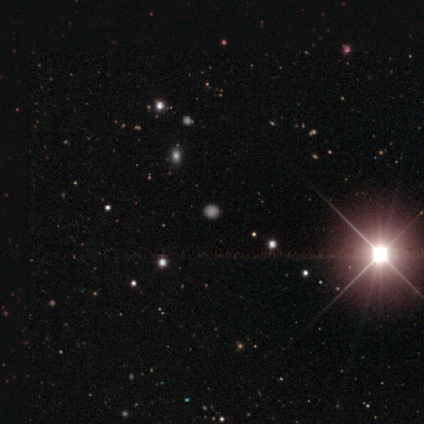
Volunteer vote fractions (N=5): This appears to be a star or artifact, not a galaxy (60%).